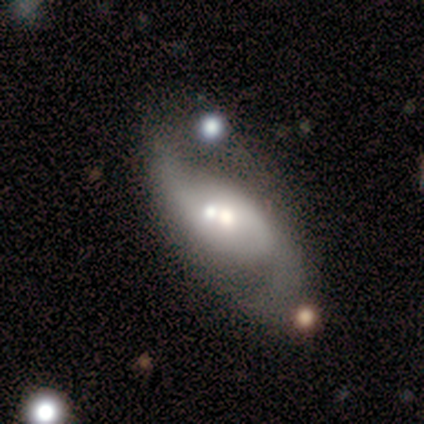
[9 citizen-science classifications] Smooth or featured? featured or disk (78%)
Edge-on disk? no (100%)
Bar? no (57%)
Spiral arms? yes (100%)
Spiral winding? loose (71%)
Spiral arm count? 2 (86%)
Bulge size? moderate (43%)
Merging? merger (50%)